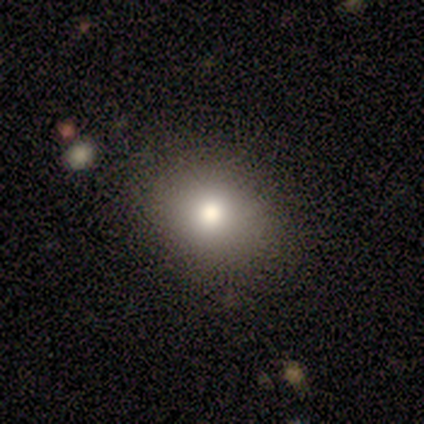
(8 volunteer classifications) Overall: smooth (100%). How rounded: round (50%, tied with in between). Merging: none (100%).